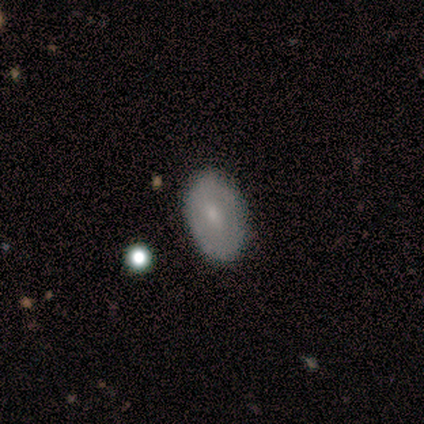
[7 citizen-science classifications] Morphology: type=smooth (71%); roundness=in between (60%); merging=none (100%).